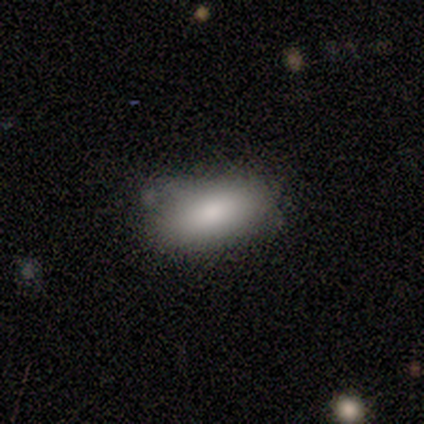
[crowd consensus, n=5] Morphology: type=smooth (80%); roundness=in between (100%); merging=none (75%).